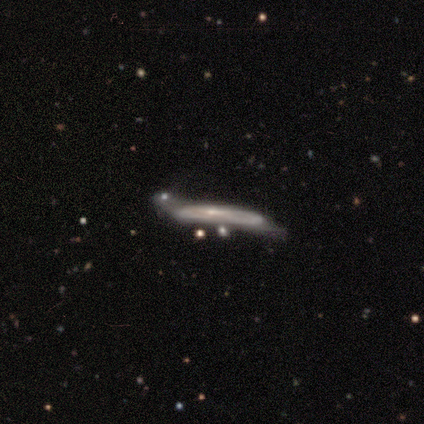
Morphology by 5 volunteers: Smooth or featured? featured or disk (60%)
Edge-on disk? yes (67%)
Edge-on bulge? none (50%, tied with rounded)
Merging? major disturbance (60%)